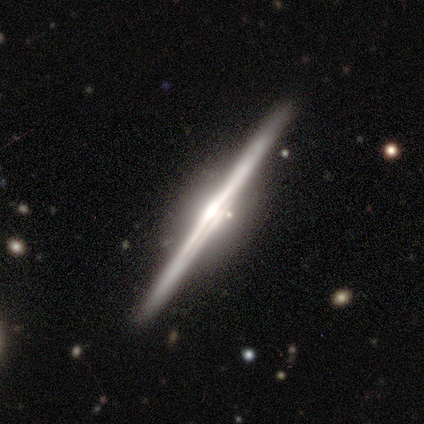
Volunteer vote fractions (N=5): Smooth or featured? featured or disk (100%)
Edge-on disk? yes (100%)
Edge-on bulge? rounded (80%)
Merging? none (60%)